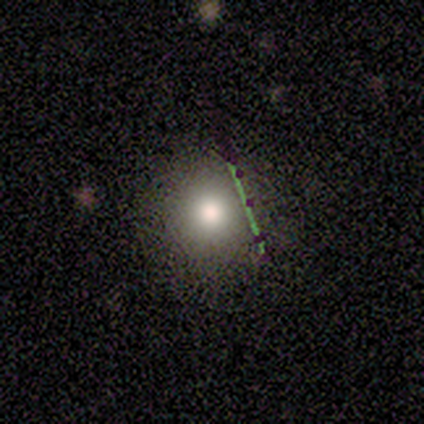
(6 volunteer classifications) Smooth or featured: smooth — 67% (featured or disk — 17%)
How rounded: round — 75% (in between — 25%)
Merging: none — 100%